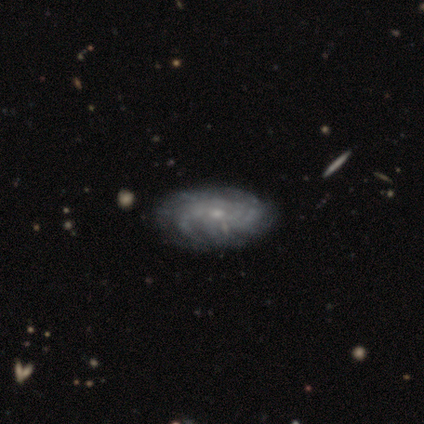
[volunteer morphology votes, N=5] smooth_or_featured: star or artifact (p=0.60) [alt: featured or disk p=0.40]